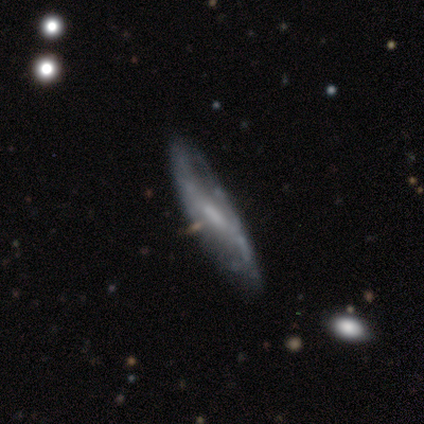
Volunteers were most divided on "smooth or featured" (2-way tie): smooth: 50%, featured or disk: 50%, star or artifact: 0%. More confident: how rounded — round (100%); merging — none (100%).